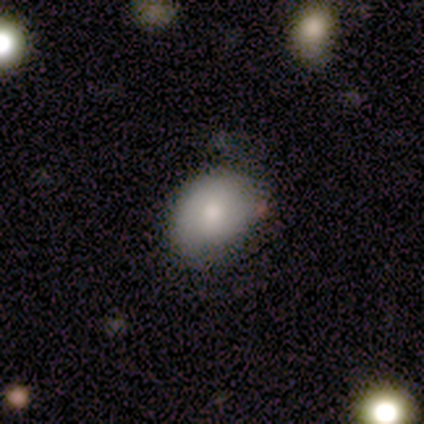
Morphology: type=smooth (80%); roundness=in between (100%); merging=none (50%).